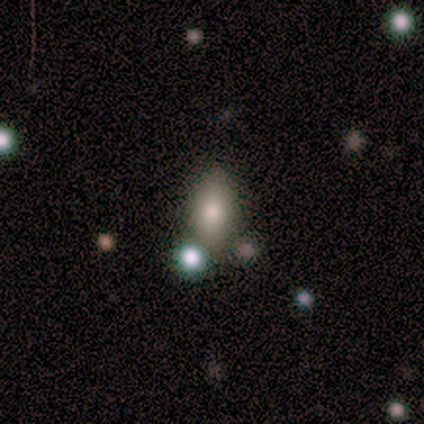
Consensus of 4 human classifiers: smooth_or_featured: smooth (p=1.00)
how_rounded: in between (p=0.75) [alt: cigar-shaped p=0.25]
merging: none (p=0.75) [alt: minor disturbance p=0.25]